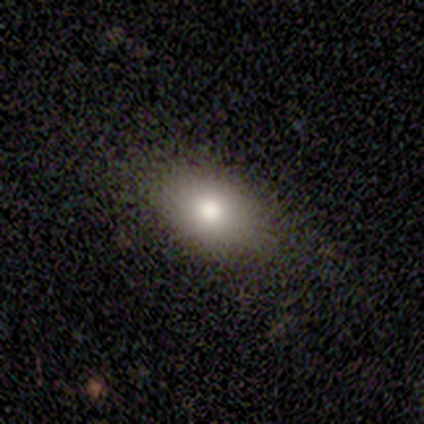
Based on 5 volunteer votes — Volunteers were most divided on "smooth or featured": smooth: 60%, featured or disk: 40%, star or artifact: 0%. More confident: merging — none (100%); how rounded — in between (67%).